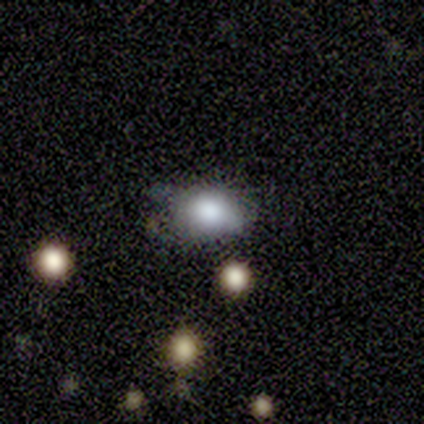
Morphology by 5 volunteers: Q: Smooth or featured?
A: star or artifact (80%); runner-up: smooth (20%)